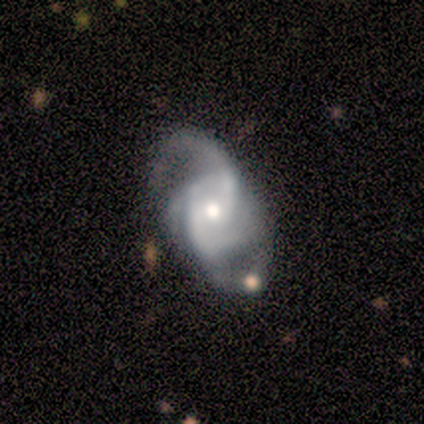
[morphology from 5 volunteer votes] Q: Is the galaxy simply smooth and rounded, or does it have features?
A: featured or disk — 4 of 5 (80%).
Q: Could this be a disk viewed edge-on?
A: no — 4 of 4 (100%).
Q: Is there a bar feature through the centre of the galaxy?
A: weak — 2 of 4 (50%, tied with no).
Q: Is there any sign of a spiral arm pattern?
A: yes — 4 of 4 (100%).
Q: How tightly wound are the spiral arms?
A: medium — 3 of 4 (75%).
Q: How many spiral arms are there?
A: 4 — 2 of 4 (50%).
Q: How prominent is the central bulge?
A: moderate — 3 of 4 (75%).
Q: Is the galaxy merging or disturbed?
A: none — 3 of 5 (60%).